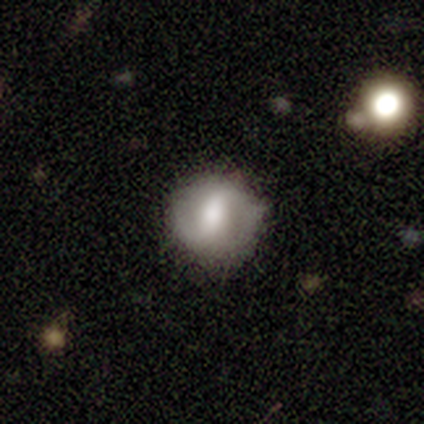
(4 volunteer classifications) This is likely a featured or disk galaxy (75%). It is clearly not viewed edge-on (100%). Bar: likely no (67%). Spiral arm pattern: clearly no (100%). Central bulge: likely large (67%). Merging: clearly none (100%).